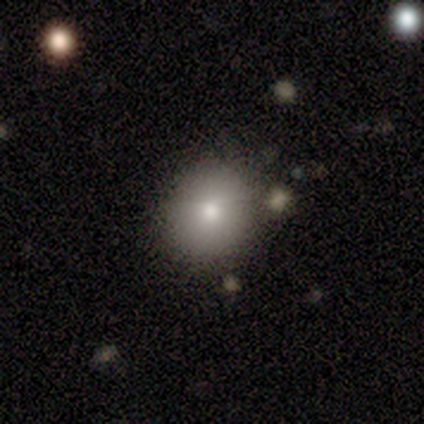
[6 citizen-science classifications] Smooth or featured? smooth (100%)
How rounded? round (67%)
Merging? none (50%, tied with minor disturbance)